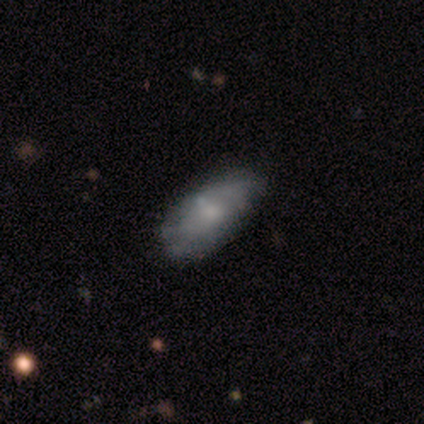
Smooth or featured?
  - smooth: 33% * (tied)
  - featured or disk: 33% * (tied)
  - star or artifact: 33% * (tied)
How rounded?
  - in between: 100% *
  - round: 0%
  - cigar-shaped: 0%
Merging?
  - none: 100% *
  - minor disturbance: 0%
  - major disturbance: 0%
  - merger: 0%